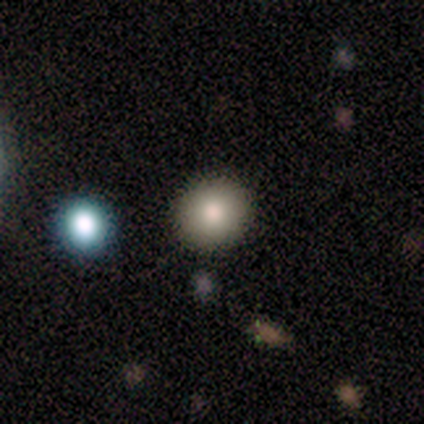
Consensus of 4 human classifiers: smooth 50% (tied), featured or disk 50% (tied), star or artifact 0%. Down the decision tree: how rounded — round (100%); merging — none (50%, tied with minor disturbance).